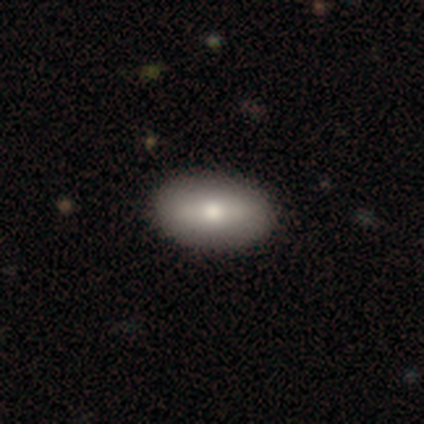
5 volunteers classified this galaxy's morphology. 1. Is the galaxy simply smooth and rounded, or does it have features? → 80% smooth, 20% featured or disk, 0% star or artifact.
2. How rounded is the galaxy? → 100% in between, 0% round, 0% cigar-shaped.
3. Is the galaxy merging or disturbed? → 100% none, 0% minor disturbance, 0% major disturbance, 0% merger.